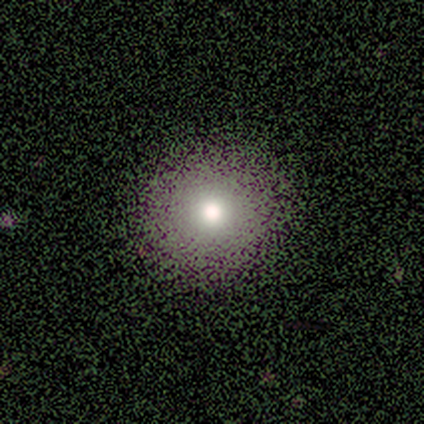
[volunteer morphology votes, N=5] smooth_or_featured: smooth (p=0.60) [alt: featured or disk p=0.20]
how_rounded: round (p=1.00)
merging: none (p=1.00)